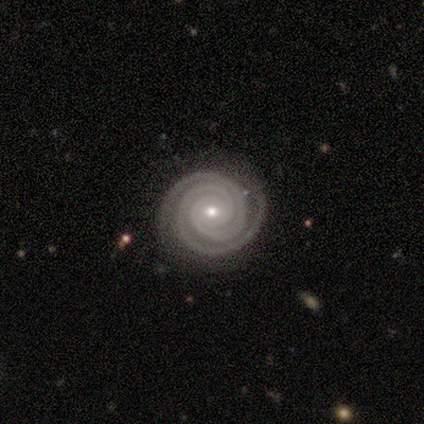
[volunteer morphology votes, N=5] Smooth or featured: featured or disk — 100%
Edge-on disk: no — 100%
Bar: no — 60% (weak — 40%)
Spiral arms: yes — 100%
Spiral winding: tight — 100%
Spiral arm count: 2 — 80% (3 — 20%)
Bulge size: small — 80% (moderate — 20%)
Merging: none — 100%